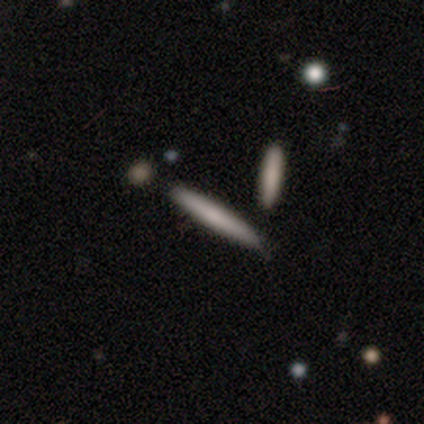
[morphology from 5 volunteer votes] smooth-or-featured: featured or disk: 40% (tied) | star or artifact: 40% (tied) | smooth: 20%
  disk-edge-on: yes: 100% | no: 0%
    edge-on-bulge: none: 100% | boxy: 0% | rounded: 0%
  merging: none: 100% | minor disturbance: 0% | major disturbance: 0% | merger: 0%